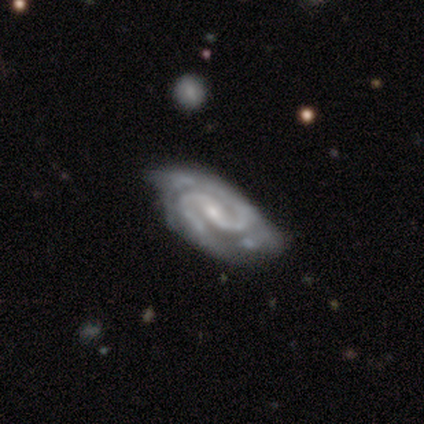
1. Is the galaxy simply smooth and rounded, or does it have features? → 84% featured or disk, 13% smooth, 3% star or artifact.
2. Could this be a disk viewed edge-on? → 97% no, 3% yes.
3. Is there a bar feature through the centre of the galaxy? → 52% weak, 32% strong, 16% no.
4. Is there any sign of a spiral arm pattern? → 100% yes, 0% no.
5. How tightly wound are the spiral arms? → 48% tight, 39% medium, 13% loose.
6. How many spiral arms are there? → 81% 2, 10% 3, 6% can't tell, 3% more than 4, 0% 1, 0% 4.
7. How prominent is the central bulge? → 71% small, 26% moderate, 3% none, 0% dominant, 0% large.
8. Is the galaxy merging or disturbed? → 59% none, 30% minor disturbance, 11% major disturbance, 0% merger.